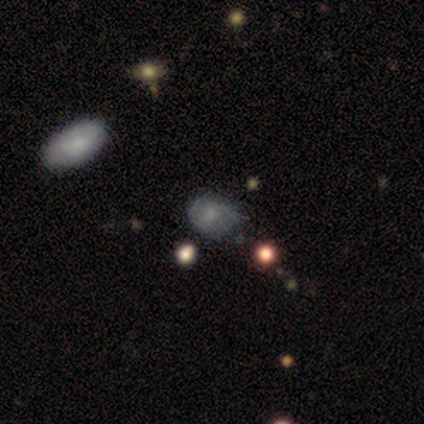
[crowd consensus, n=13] This is likely a featured or disk galaxy (62%). It is clearly not viewed edge-on (100%). Bar: clearly no (88%). Spiral arm pattern: likely no (75%). Central bulge: marginally moderate (38%, tied with small). Merging: clearly none (83%).